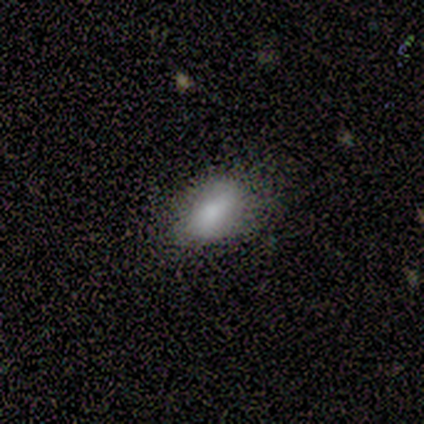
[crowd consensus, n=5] Smooth or featured? 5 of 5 (100%) said smooth. How rounded? 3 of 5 (60%) said in between. Merging? 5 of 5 (100%) said none.